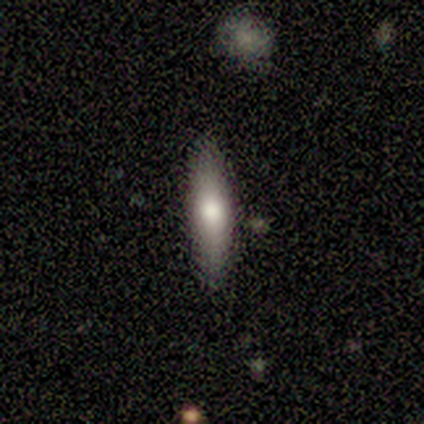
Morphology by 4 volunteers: Smooth or featured? smooth (50%, tied with featured or disk)
How rounded? cigar-shaped (100%)
Merging? none (100%)